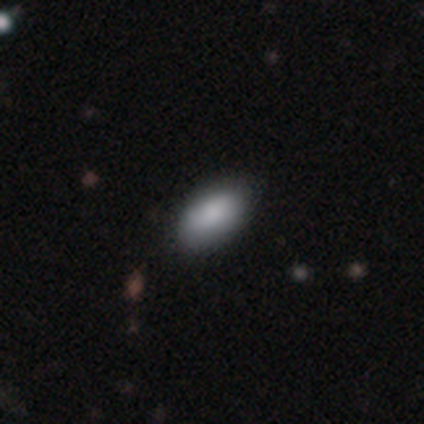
smooth_or_featured: smooth (p=0.85) [alt: featured or disk p=0.13]
how_rounded: in between (p=0.94) [alt: round p=0.06]
merging: none (p=0.79) [alt: minor disturbance p=0.18]